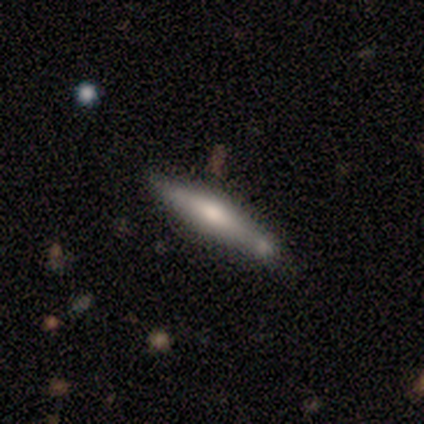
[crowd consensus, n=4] smooth_or_featured: smooth (p=0.50) [tied with: featured or disk p=0.50]
how_rounded: cigar-shaped (p=1.00)
merging: none (p=0.50) [tied with: minor disturbance p=0.50]